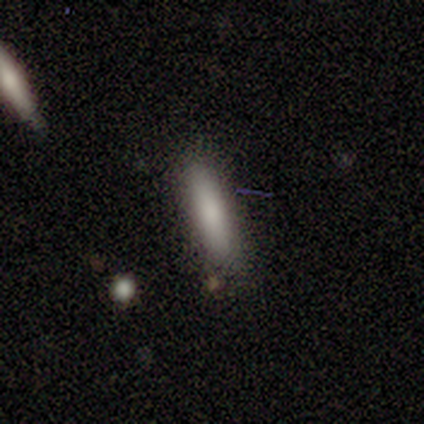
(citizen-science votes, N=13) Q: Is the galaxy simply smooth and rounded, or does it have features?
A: smooth — 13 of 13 (100%).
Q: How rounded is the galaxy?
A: cigar-shaped — 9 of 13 (69%).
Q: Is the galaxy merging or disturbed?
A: none — 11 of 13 (85%).